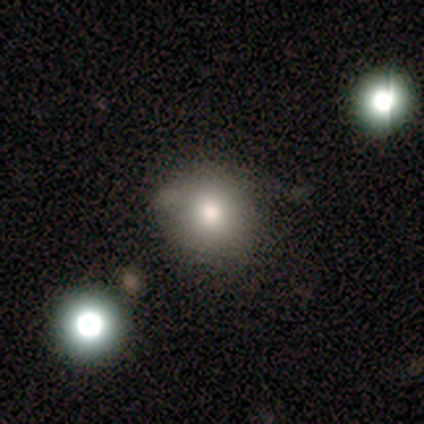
Smooth or featured: smooth — 100%
How rounded: round — 100%
Merging: none — 80% (minor disturbance — 20%)